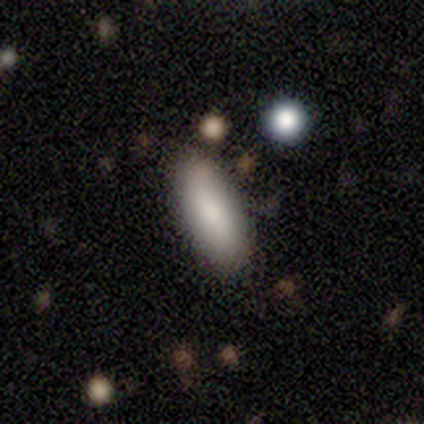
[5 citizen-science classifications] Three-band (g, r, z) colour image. It shows a smooth galaxy with no disk features (100%) that is in between round and cigar-shaped (100%). Merging: none (100%).